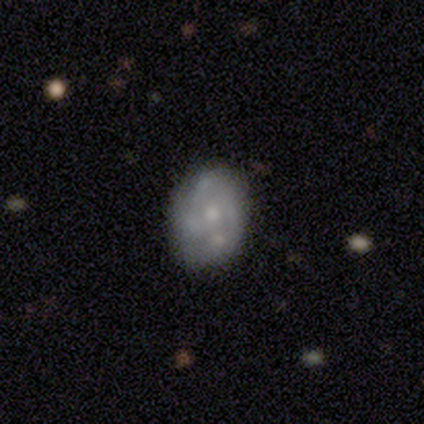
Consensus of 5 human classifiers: A featured or disk galaxy (60%) with no bar (100%), 2 (33%, tied with 4 and can't tell) tight (33%, tied with medium and loose) spiral arms (100%) and a moderate central bulge (67%).

Vote fractions:
- Smooth or featured? featured or disk: 60% / smooth: 20% / star or artifact: 20%
- Edge-on disk? no: 100% / yes: 0%
- Bar? no: 100% / strong: 0% / weak: 0%
- Spiral arms? yes: 100% / no: 0%
- Spiral winding? tight: 33% (tied) / medium: 33% (tied) / loose: 33% (tied)
- Spiral arm count? 2: 33% (tied) / 4: 33% (tied) / can't tell: 33% (tied) / 1: 0% / 3: 0% / more than 4: 0%
- Bulge size? moderate: 67% / small: 33% / dominant: 0% / large: 0% / none: 0%
- Merging? none: 75% / minor disturbance: 25% / major disturbance: 0% / merger: 0%